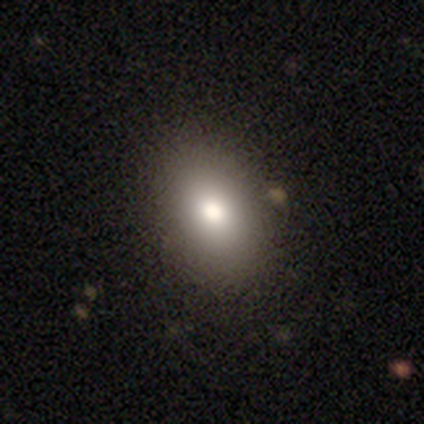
smooth_or_featured: smooth (p=1.00)
how_rounded: in between (p=0.80) [alt: round p=0.20]
merging: none (p=1.00)